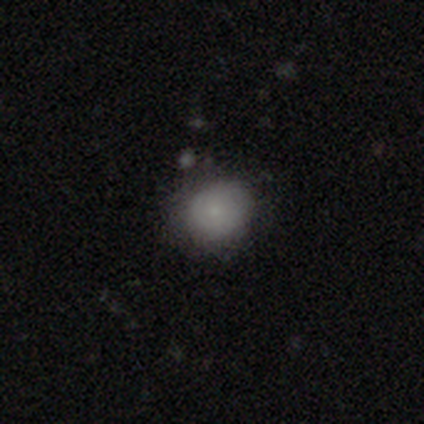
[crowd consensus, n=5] smooth_or_featured: smooth (p=0.80) [alt: star or artifact p=0.20]
how_rounded: round (p=0.50) [tied with: in between p=0.50]
merging: none (p=1.00)